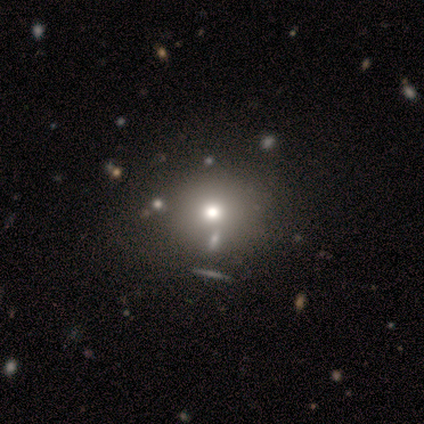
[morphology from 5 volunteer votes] Q: Smooth or featured?
A: featured or disk (40%); tied with: star or artifact (40%)
Q: Edge-on disk?
A: no (100%)
Q: Bar?
A: weak (50%); tied with: no (50%)
Q: Spiral arms?
A: no (100%)
Q: Bulge size?
A: moderate (50%); tied with: small (50%)
Q: Merging?
A: none (67%); runner-up: major disturbance (33%)